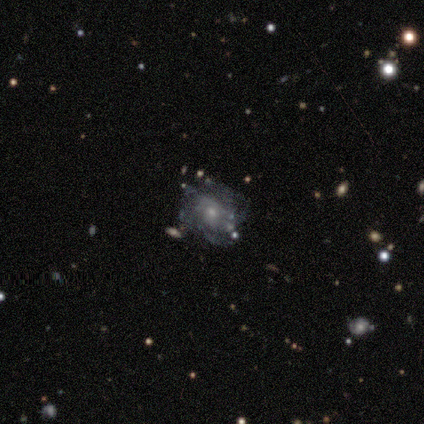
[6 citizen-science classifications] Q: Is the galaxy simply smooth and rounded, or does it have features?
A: featured or disk — 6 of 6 (100%).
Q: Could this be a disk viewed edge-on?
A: no — 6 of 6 (100%).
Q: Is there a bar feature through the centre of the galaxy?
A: weak — 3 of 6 (50%, tied with no).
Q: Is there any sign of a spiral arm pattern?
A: yes — 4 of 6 (67%).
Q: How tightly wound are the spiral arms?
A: tight — 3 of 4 (75%).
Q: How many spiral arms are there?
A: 1 — 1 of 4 (25%, tied with 2, 3 and can't tell).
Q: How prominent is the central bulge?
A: small — 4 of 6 (67%).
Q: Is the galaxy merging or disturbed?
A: none — 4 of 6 (67%).